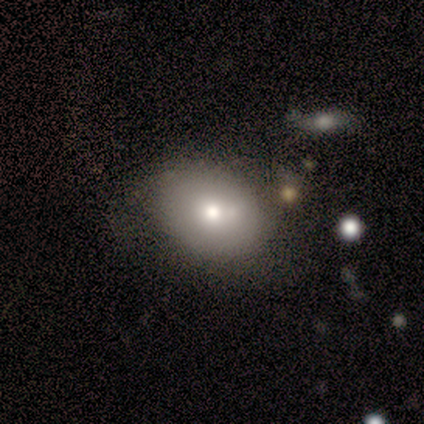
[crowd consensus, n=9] smooth-or-featured: smooth: 56% | featured or disk: 44% | star or artifact: 0%
  how-rounded: in between: 80% | round: 20% | cigar-shaped: 0%
  merging: none: 67% | minor disturbance: 22% | merger: 11% | major disturbance: 0%